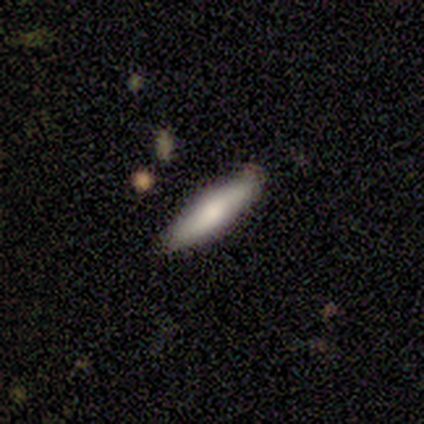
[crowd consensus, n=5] Smooth or featured?
  - smooth: 100% *
  - featured or disk: 0%
  - star or artifact: 0%
How rounded?
  - cigar-shaped: 80% *
  - in between: 20%
  - round: 0%
Merging?
  - none: 80% *
  - minor disturbance: 20%
  - major disturbance: 0%
  - merger: 0%